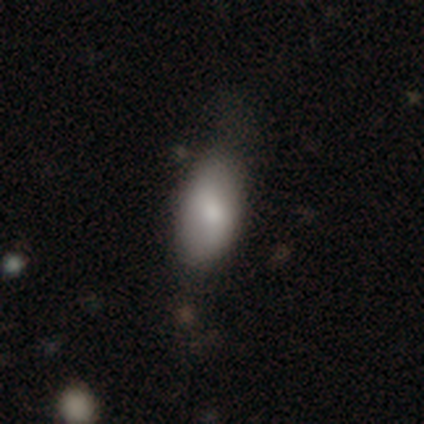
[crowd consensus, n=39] A smooth galaxy with no disk features (85%) that is in between round and cigar-shaped (94%).

Vote fractions:
- Smooth or featured? smooth: 85% / featured or disk: 8% / star or artifact: 8%
- How rounded? in between: 94% / cigar-shaped: 6% / round: 0%
- Merging? none: 58% / minor disturbance: 33% / major disturbance: 8% / merger: 0%